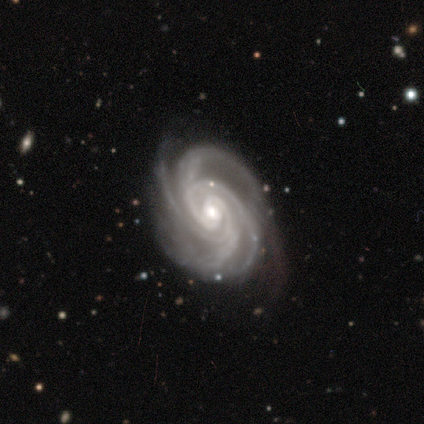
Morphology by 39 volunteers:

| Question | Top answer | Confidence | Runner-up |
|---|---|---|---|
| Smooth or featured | featured or disk | 92% | star or artifact (5%) |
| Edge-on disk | no | 97% | yes (3%) |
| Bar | no | 71% | weak (26%) |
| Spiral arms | yes | 100% | — |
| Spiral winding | tight | 86% | medium (14%) |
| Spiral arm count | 4 | 66% | 3 (14%) |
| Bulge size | small | 54% | moderate (34%) |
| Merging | none | 81% | minor disturbance (16%) |